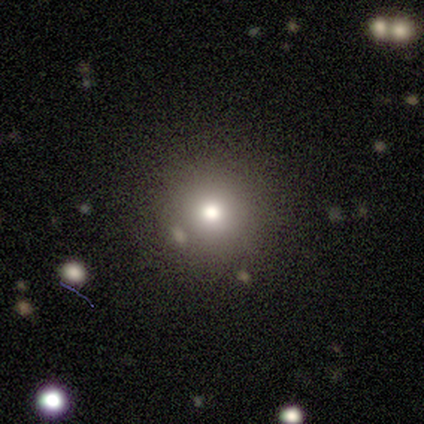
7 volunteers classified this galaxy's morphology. A smooth galaxy with no disk features (71%) that is round (100%).

Vote fractions:
- Smooth or featured? smooth: 71% / star or artifact: 29% / featured or disk: 0%
- How rounded? round: 100% / in between: 0% / cigar-shaped: 0%
- Merging? none: 60% / minor disturbance: 40% / major disturbance: 0% / merger: 0%